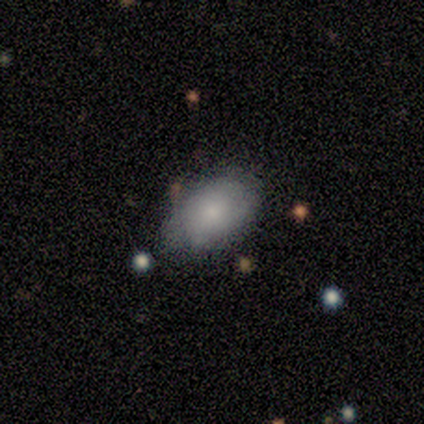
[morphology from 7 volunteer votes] This is possibly a featured or disk galaxy (57%). It is clearly not viewed edge-on (100%). Bar: likely no (75%). Spiral arm pattern: likely no (75%). Central bulge: possibly small (50%). Merging: possibly minor disturbance (57%).